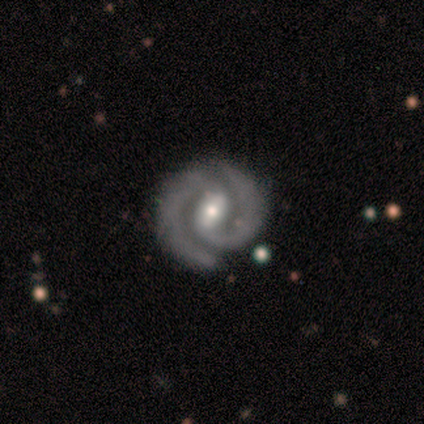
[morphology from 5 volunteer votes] type=featured or disk (60%); edge-on=no (100%); bar=strong (33%, tied with weak and no); spiral arms=yes (100%); winding=tight (67%); arm count=2 (100%); bulge=moderate (67%); merging=none (100%).